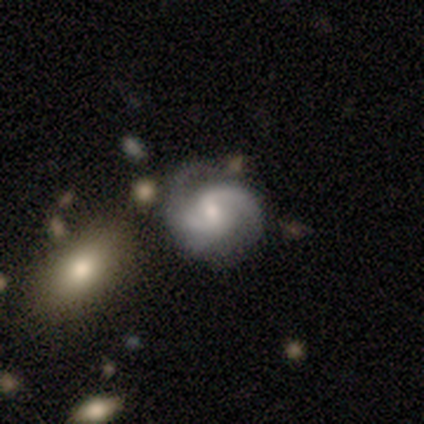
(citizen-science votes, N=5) smooth-or-featured: featured or disk: 80% | smooth: 20% | star or artifact: 0%
  disk-edge-on: no: 100% | yes: 0%
    bar: strong: 50% | weak: 25% | no: 25%
    has-spiral-arms: yes: 100% | no: 0%
      spiral-winding: tight: 50% (tied) | medium: 50% (tied) | loose: 0%
      spiral-arm-count: 2: 75% | 1: 25% | 3: 0% | 4: 0% | more than 4: 0% | can't tell: 0%
    bulge-size: small: 50% | moderate: 25% | none: 25% | dominant: 0% | large: 0%
  merging: none: 60% | major disturbance: 20% | merger: 20% | minor disturbance: 0%